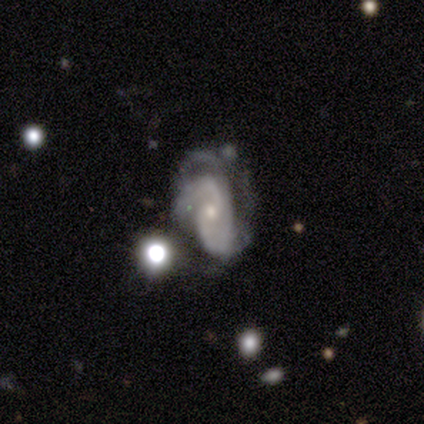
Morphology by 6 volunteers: This appears to be a featured or disk galaxy (83%) with no bar (60%), 2 (80%) tight (40%, tied with medium) spiral arms (100%) and a small central bulge (60%). Merging: none (50%).